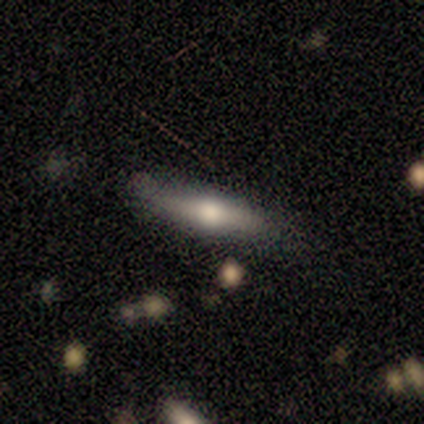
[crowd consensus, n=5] Smooth or featured? featured or disk (80%)
Edge-on disk? yes (75%)
Edge-on bulge? rounded (100%)
Merging? none (80%)